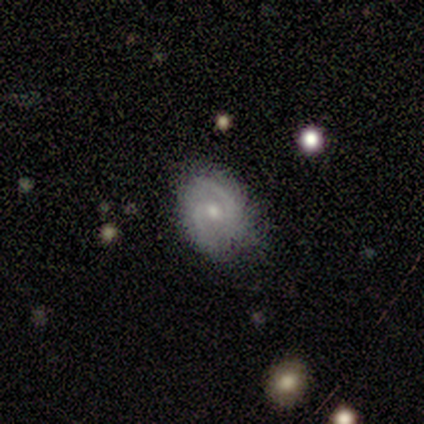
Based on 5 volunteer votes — featured or disk 80%, smooth 20%, star or artifact 0%. Down the decision tree: edge-on disk — no (100%); bar — no (75%); spiral arms — yes (100%); spiral arm count — 2 (100%); spiral winding — tight (50%, tied with medium); bulge size — small (75%); merging — none (60%).